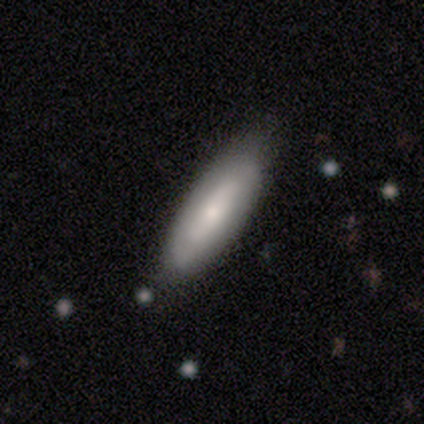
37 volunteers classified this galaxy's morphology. type=smooth (68%); roundness=in between (80%); merging=none (65%).